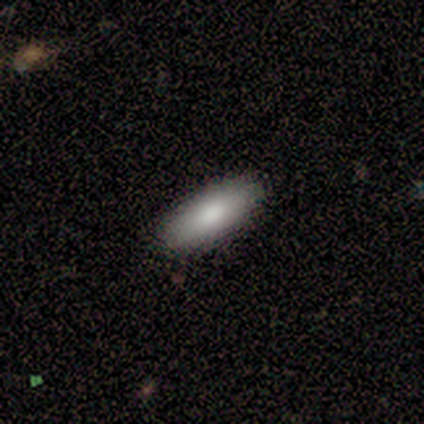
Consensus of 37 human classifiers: Overall: smooth (73%). How rounded: in between (63%; cigar-shaped 37%). Merging: none (89%).